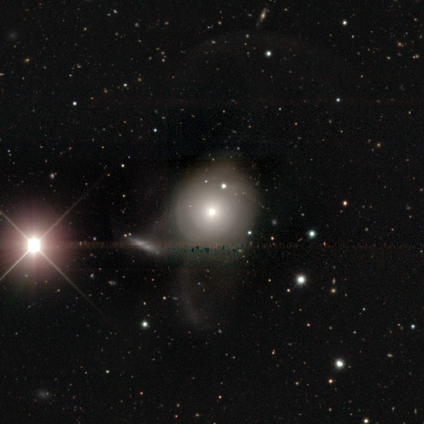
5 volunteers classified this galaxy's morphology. A star or artifact, not a galaxy (60%).

Vote fractions:
- Smooth or featured? star or artifact: 60% / featured or disk: 40% / smooth: 0%